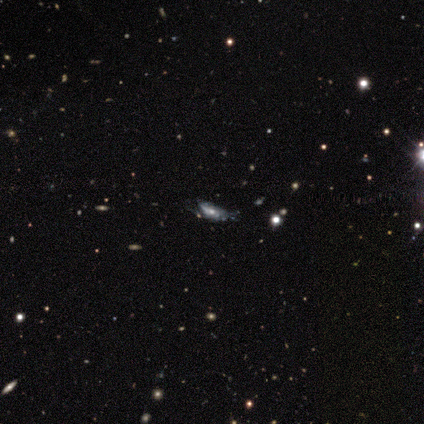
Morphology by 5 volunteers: A featured or disk galaxy (100%) with no bar (80%), tight (60%) spiral arms (100%) and a moderate central bulge (40%, tied with small). Merging: none (60%).